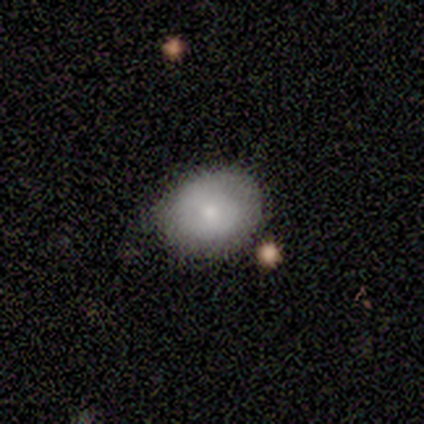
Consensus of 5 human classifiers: smooth_or_featured: smooth (p=1.00)
how_rounded: round (p=0.80) [alt: in between p=0.20]
merging: none (p=1.00)